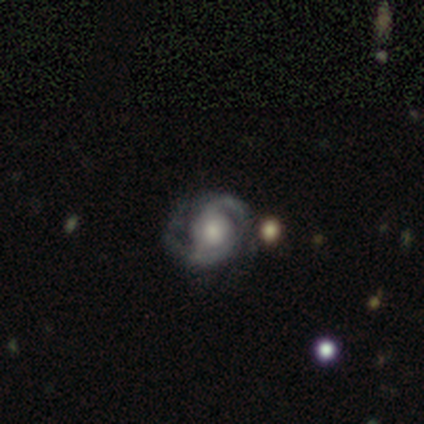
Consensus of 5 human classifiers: Smooth or featured? featured or disk (100%)
Edge-on disk? no (100%)
Bar? no (80%)
Spiral arms? yes (80%)
Spiral winding? tight (50%, tied with loose)
Spiral arm count? 2 (50%, tied with can't tell)
Bulge size? moderate (40%, tied with small)
Merging? none (60%)